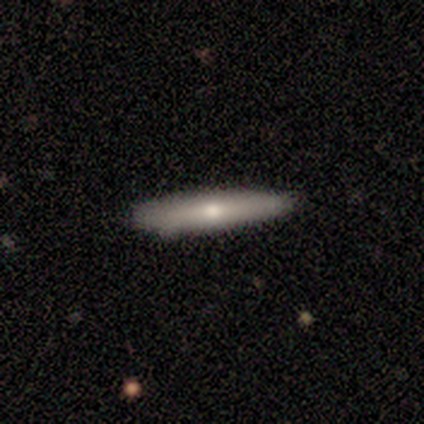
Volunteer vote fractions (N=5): Smooth or featured?
  - featured or disk: 80% *
  - smooth: 20%
  - star or artifact: 0%
Edge-on disk?
  - yes: 50% * (tied)
  - no: 50% * (tied)
Edge-on bulge?
  - none: 50% * (tied)
  - rounded: 50% * (tied)
  - boxy: 0%
Merging?
  - none: 80% *
  - minor disturbance: 20%
  - major disturbance: 0%
  - merger: 0%